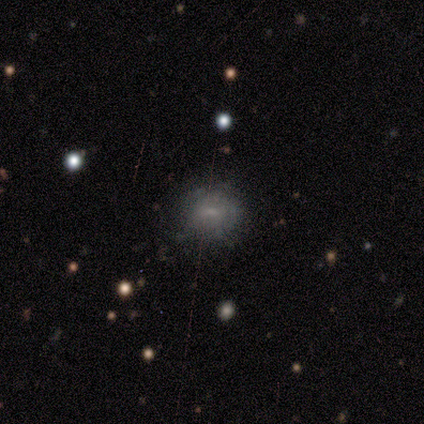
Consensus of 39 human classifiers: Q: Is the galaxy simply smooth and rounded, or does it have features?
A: smooth — 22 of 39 (56%).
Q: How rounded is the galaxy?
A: round — 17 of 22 (77%).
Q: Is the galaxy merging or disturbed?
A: none — 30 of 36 (83%).